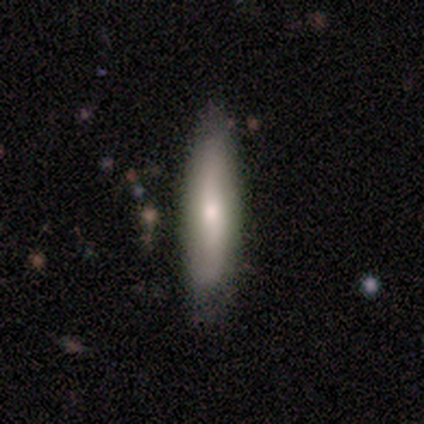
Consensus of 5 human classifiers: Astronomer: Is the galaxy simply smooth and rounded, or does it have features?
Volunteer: featured or disk — 60% (runner-up: smooth, 40%).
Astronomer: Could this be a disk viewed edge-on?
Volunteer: yes — 67%.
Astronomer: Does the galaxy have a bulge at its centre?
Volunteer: none — 50%, tied with rounded at 50%.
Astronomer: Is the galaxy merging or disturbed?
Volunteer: none — 60% (runner-up: minor disturbance, 40%).